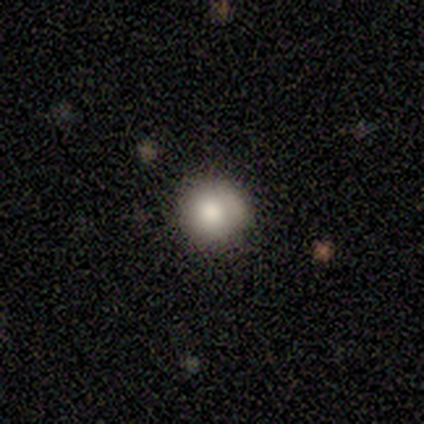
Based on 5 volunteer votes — Morphology: type=smooth (100%); roundness=round (100%); merging=none (60%).